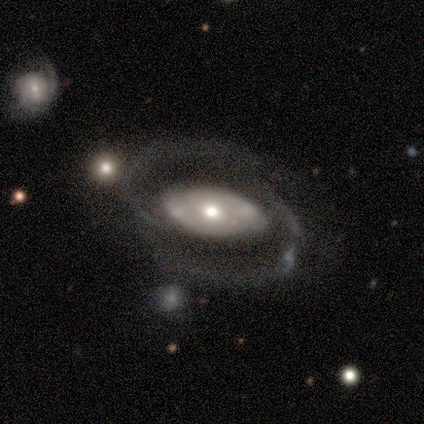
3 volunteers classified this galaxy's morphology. A featured or disk galaxy (100%) with no bar (67%), 2 (100%) medium (100%) spiral arms (100%) and a moderate central bulge (67%).

Vote fractions:
- Smooth or featured? featured or disk: 100% / smooth: 0% / star or artifact: 0%
- Edge-on disk? no: 100% / yes: 0%
- Bar? no: 67% / strong: 33% / weak: 0%
- Spiral arms? yes: 100% / no: 0%
- Spiral winding? medium: 100% / tight: 0% / loose: 0%
- Spiral arm count? 2: 100% / 1: 0% / 3: 0% / 4: 0% / more than 4: 0% / can't tell: 0%
- Bulge size? moderate: 67% / large: 33% / dominant: 0% / small: 0% / none: 0%
- Merging? none: 67% / minor disturbance: 33% / major disturbance: 0% / merger: 0%